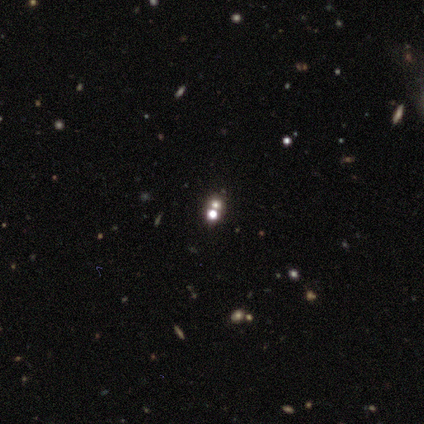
A star or artifact, not a galaxy (54%).

Vote fractions:
- Smooth or featured? star or artifact: 54% / smooth: 26% / featured or disk: 21%